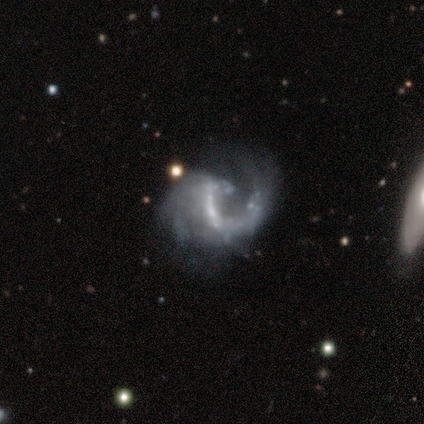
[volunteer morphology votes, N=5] Volunteers were most divided on "bulge size": none: 60%, small: 40%, dominant: 0%, large: 0%, moderate: 0%. More confident: smooth or featured — featured or disk (100%); edge-on disk — no (100%); spiral arms — yes (100%); spiral arm count — 1 (100%); bar — no (80%); merging — major disturbance (80%); spiral winding — loose (60%).